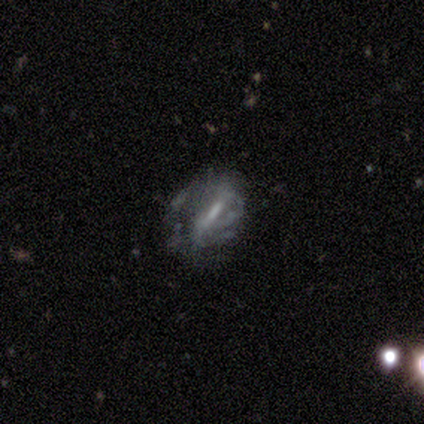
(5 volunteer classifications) Q: Smooth or featured?
A: featured or disk (60%); runner-up: smooth (20%)
Q: Edge-on disk?
A: no (67%); runner-up: yes (33%)
Q: Bar?
A: strong (50%); tied with: no (50%)
Q: Spiral arms?
A: yes (100%)
Q: Spiral winding?
A: tight (50%); tied with: loose (50%)
Q: Spiral arm count?
A: 2 (50%); tied with: 3 (50%)
Q: Bulge size?
A: dominant (50%); tied with: moderate (50%)
Q: Merging?
A: major disturbance (75%); runner-up: minor disturbance (25%)